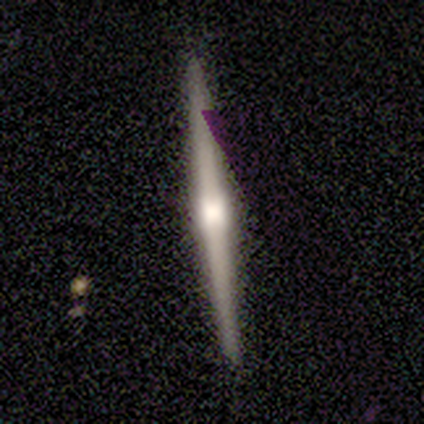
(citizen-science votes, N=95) featured or disk 86%, smooth 12%, star or artifact 2%. Down the decision tree: edge-on disk — yes (100%); edge-on bulge — rounded (71%); merging — none (97%).